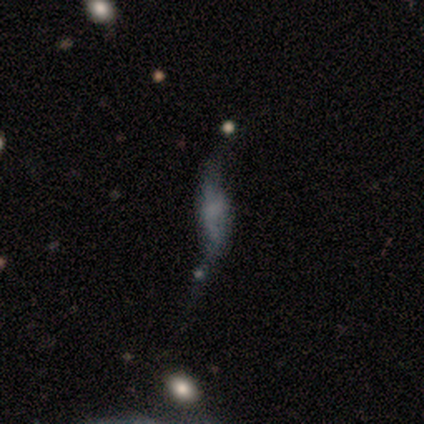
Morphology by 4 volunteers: Smooth or featured: smooth — 50% (featured or disk — 25%)
How rounded: in between — 100%
Merging: none — 33% (tied with minor disturbance — 33%; merger — 33%)